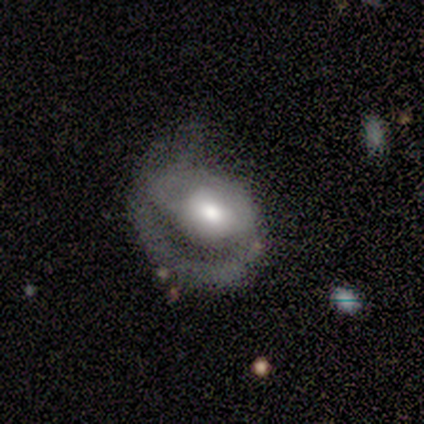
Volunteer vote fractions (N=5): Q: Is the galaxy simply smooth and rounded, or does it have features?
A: featured or disk — 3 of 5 (60%).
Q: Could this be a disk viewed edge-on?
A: no — 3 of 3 (100%).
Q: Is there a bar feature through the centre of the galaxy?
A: strong — 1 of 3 (33%, tied with weak and no).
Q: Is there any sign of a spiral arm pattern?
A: yes — 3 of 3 (100%).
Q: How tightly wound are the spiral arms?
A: tight — 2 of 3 (67%).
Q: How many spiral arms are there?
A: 2 — 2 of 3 (67%).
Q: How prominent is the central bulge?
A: moderate — 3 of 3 (100%).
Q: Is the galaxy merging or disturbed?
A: none — 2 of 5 (40%, tied with major disturbance).